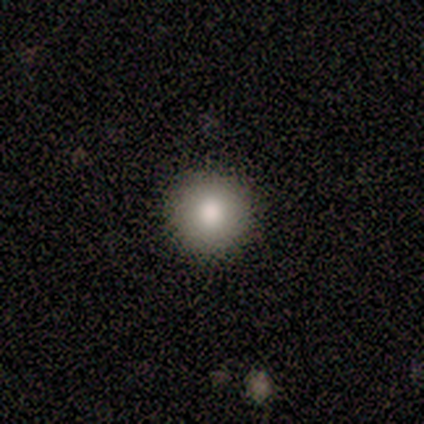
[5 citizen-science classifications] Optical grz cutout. It shows a smooth galaxy with no disk features (80%) that is round (100%). Merging: none (100%).